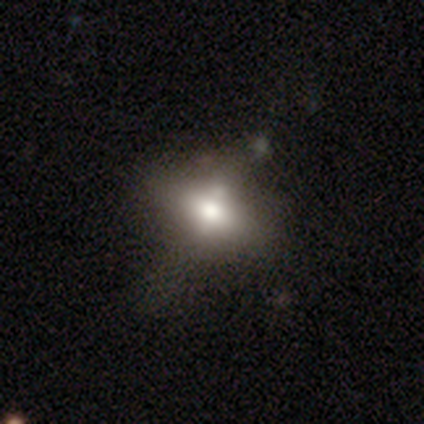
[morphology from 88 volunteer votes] Smooth or featured: smooth — 49% (featured or disk — 26%)
How rounded: in between — 74% (round — 19%)
Merging: none — 47% (minor disturbance — 26%)